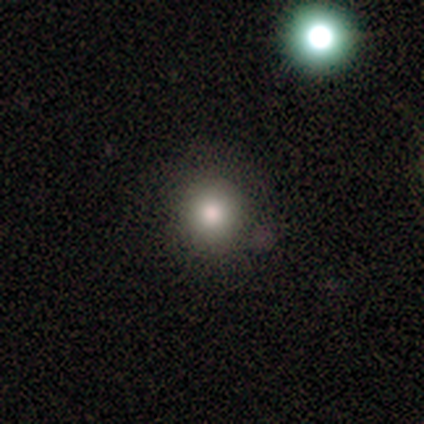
smooth-or-featured: smooth: 72% | star or artifact: 18% | featured or disk: 9%
  how-rounded: round: 95% | in between: 5% | cigar-shaped: 0%
  merging: none: 83% | minor disturbance: 10% | merger: 4% | major disturbance: 3%